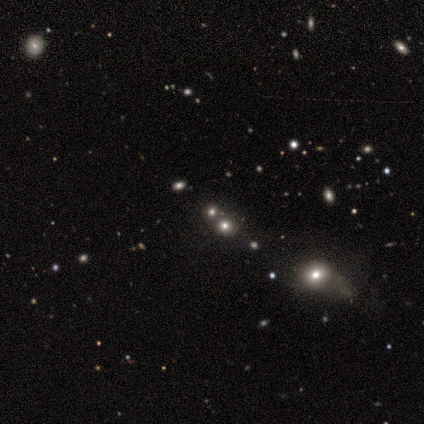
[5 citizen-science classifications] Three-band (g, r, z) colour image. It shows a star or artifact, not a galaxy (60%).